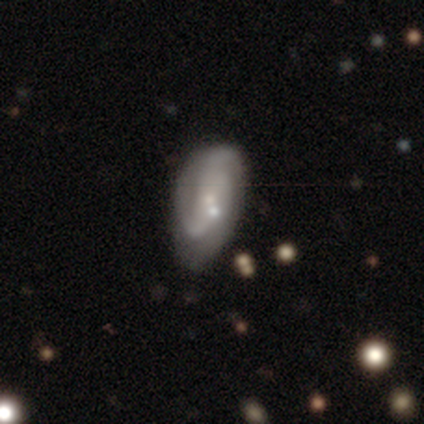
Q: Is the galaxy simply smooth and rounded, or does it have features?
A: featured or disk — 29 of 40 (72%).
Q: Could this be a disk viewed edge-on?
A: no — 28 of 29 (97%).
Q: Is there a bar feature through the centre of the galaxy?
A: no — 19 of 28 (68%).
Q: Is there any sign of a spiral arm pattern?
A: yes — 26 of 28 (93%).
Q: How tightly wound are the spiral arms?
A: medium — 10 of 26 (38%).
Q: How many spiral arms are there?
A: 2 — 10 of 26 (38%).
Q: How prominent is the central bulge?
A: small — 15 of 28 (54%).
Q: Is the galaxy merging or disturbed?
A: none — 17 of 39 (44%).